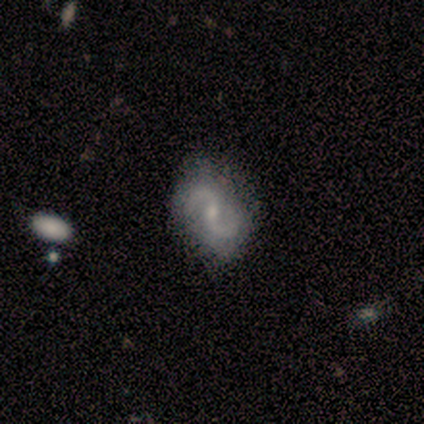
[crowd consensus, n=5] Smooth or featured? 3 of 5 (60%) said featured or disk. Edge-on disk? 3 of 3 (100%) said no. Bar? 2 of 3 (67%) said no. Spiral arms? 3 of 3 (100%) said yes. Spiral winding? 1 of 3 (33%, tied with medium and loose) said tight. Spiral arm count? 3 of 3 (100%) said 2. Bulge size? 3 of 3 (100%) said small. Merging? 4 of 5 (80%) said none.